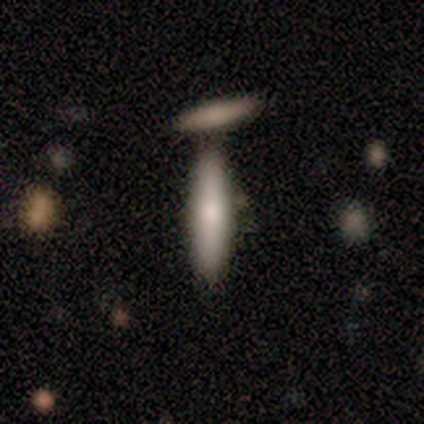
smooth_or_featured: smooth (p=0.40) [tied with: featured or disk p=0.40]
how_rounded: cigar-shaped (p=1.00)
merging: none (p=0.75) [alt: merger p=0.25]